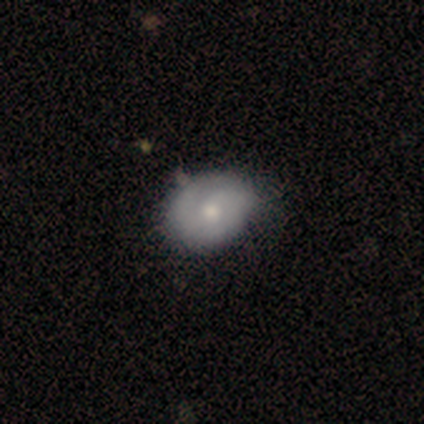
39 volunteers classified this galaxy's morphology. smooth-or-featured: smooth: 44% | featured or disk: 41% | star or artifact: 15%
  how-rounded: in between: 59% | round: 41% | cigar-shaped: 0%
  merging: none: 48% | minor disturbance: 18% | major disturbance: 6% | merger: 0%